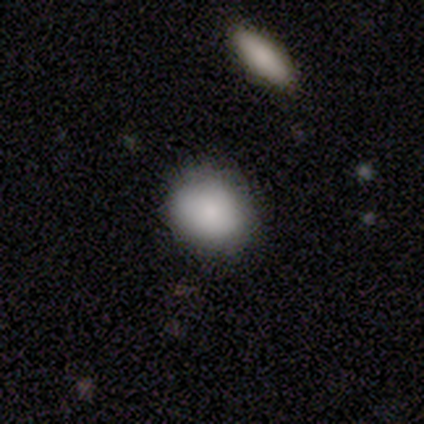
Smooth or featured?
  - smooth: 60% *
  - star or artifact: 40%
  - featured or disk: 0%
How rounded?
  - round: 100% *
  - in between: 0%
  - cigar-shaped: 0%
Merging?
  - none: 67% *
  - minor disturbance: 33%
  - major disturbance: 0%
  - merger: 0%